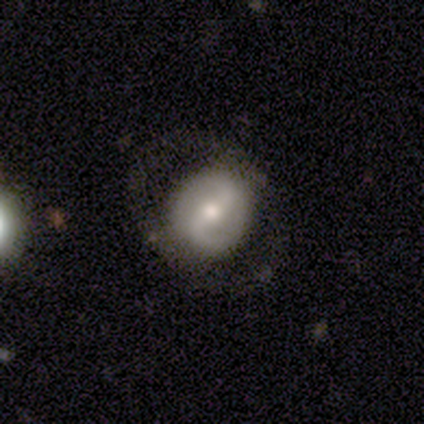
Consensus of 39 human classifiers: Overall: featured or disk (74%). Edge-on disk: no (100%). Bar: strong (52%; weak 48%). Spiral arms: yes (86%). Spiral arm count: 2 (84%). Spiral winding: loose (48%; medium 36%). Bulge size: moderate (59%; small 34%). Merging: none (59%; minor disturbance 22%).